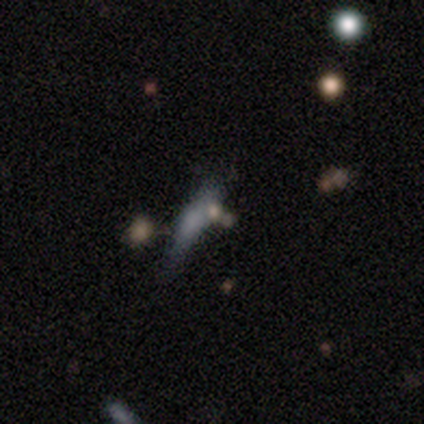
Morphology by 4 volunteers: This appears to be a smooth galaxy with no disk features (50%) that is in between round and cigar-shaped (50%, tied with cigar-shaped). Merging: none (33%, tied with minor disturbance and merger).